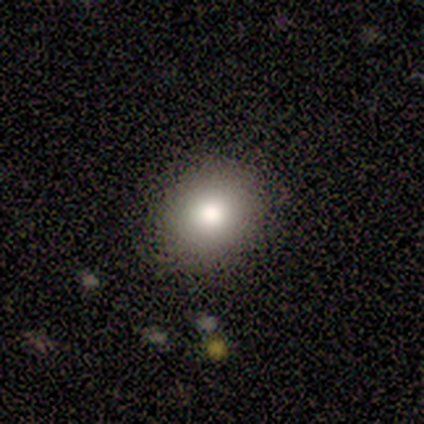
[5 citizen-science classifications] A smooth galaxy with no disk features (60%) that is round (67%). Merging: none (67%).